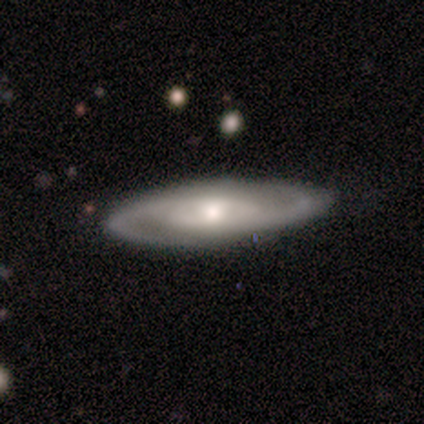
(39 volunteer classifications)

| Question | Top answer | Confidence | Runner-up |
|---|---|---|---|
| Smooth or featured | featured or disk | 72% | smooth (23%) |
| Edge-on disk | no | 71% | yes (29%) |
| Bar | no | 45% | weak (40%) |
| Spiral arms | yes | 90% | no (10%) |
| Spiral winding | medium | 61% | tight (28%) |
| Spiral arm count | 2 | 94% | can't tell (6%) |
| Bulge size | moderate | 65% | small (30%) |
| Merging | none | 76% | minor disturbance (22%) |